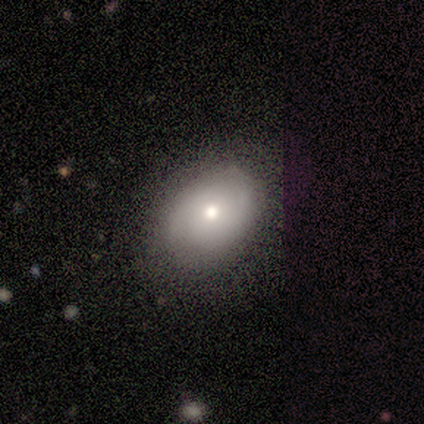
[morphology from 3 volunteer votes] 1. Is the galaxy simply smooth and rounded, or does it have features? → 67% smooth, 33% star or artifact, 0% featured or disk.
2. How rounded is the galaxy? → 100% in between, 0% round, 0% cigar-shaped.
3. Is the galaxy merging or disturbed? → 100% none, 0% minor disturbance, 0% major disturbance, 0% merger.